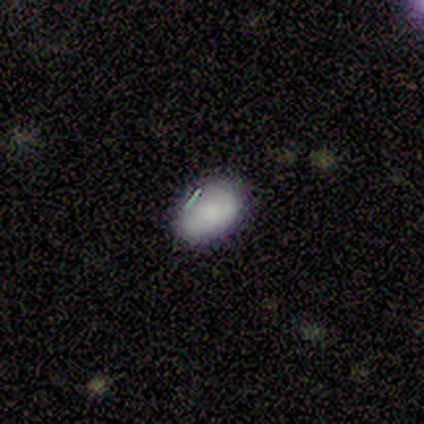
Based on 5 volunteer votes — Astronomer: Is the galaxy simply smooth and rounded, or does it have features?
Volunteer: smooth — 100%.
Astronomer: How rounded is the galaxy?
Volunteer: in between — 80%.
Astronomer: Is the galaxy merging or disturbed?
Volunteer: none — 100%.